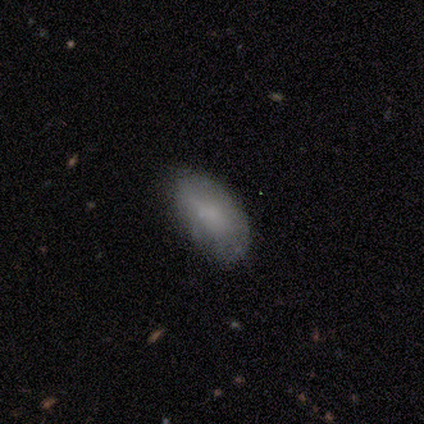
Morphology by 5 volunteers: Q: Smooth or featured?
A: featured or disk (60%); runner-up: smooth (40%)
Q: Edge-on disk?
A: no (100%)
Q: Bar?
A: no (100%)
Q: Spiral arms?
A: no (100%)
Q: Bulge size?
A: moderate (67%); runner-up: none (33%)
Q: Merging?
A: none (60%); runner-up: minor disturbance (20%)